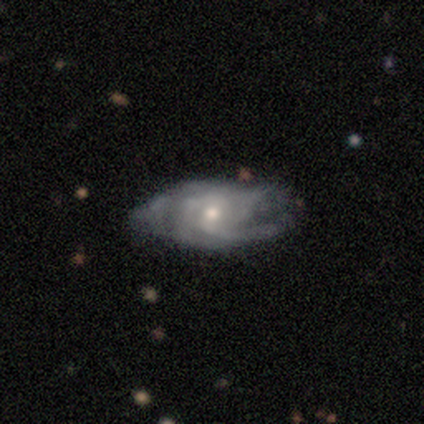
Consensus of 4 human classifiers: This appears to be a featured or disk galaxy (100%) with no bar (75%), 3 (33%, tied with 4 and can't tell) medium (67%) spiral arms (75%) and a moderate central bulge (50%, tied with small). Merging: none (75%).